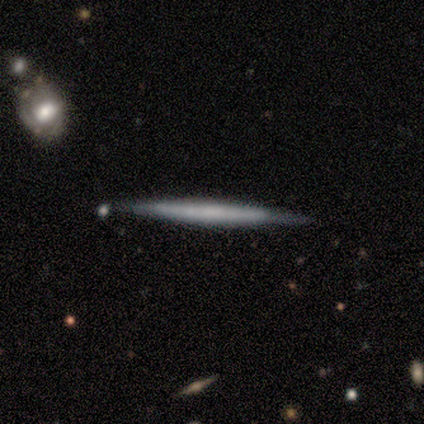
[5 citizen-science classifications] This is marginally a smooth galaxy (40%, tied with featured or disk). How rounded: clearly cigar-shaped (100%). Merging: possibly none (50%, tied with minor disturbance).